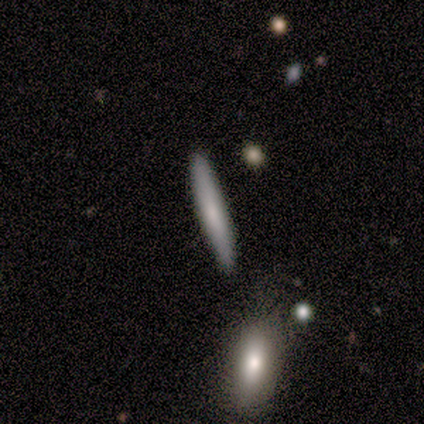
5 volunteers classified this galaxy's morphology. smooth 100%, featured or disk 0%, star or artifact 0%. Down the decision tree: how rounded — cigar-shaped (100%); merging — none (100%).